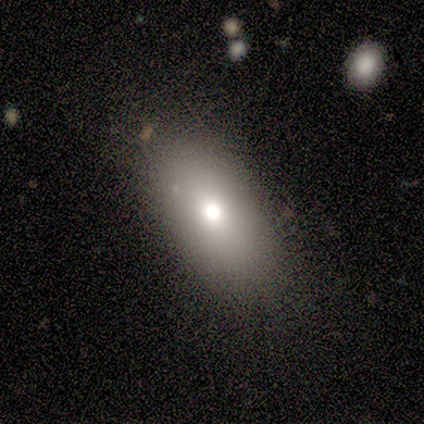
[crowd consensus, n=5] This appears to be a smooth galaxy with no disk features (80%) that is in between round and cigar-shaped (100%). Merging: none (80%).